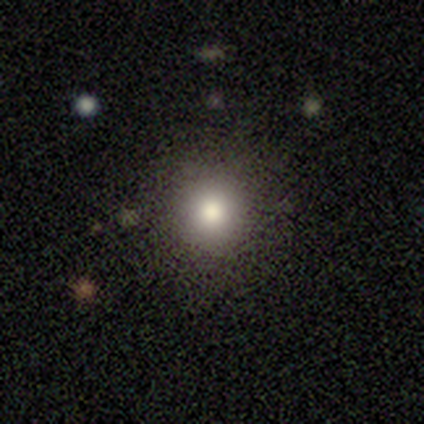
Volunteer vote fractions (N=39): A smooth galaxy with no disk features (85%) that is round (97%).

Vote fractions:
- Smooth or featured? smooth: 85% / star or artifact: 13% / featured or disk: 3%
- How rounded? round: 97% / in between: 3% / cigar-shaped: 0%
- Merging? none: 91% / minor disturbance: 6% / major disturbance: 3% / merger: 0%